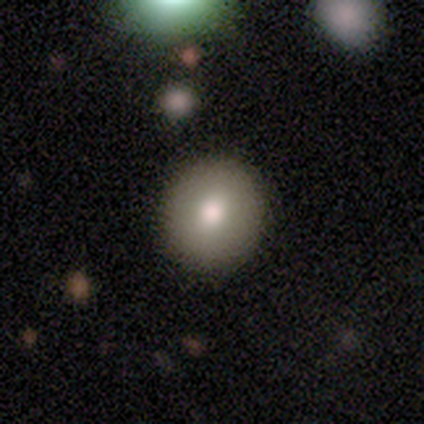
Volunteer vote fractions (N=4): smooth_or_featured: smooth (p=1.00)
how_rounded: round (p=0.75) [alt: in between p=0.25]
merging: none (p=1.00)